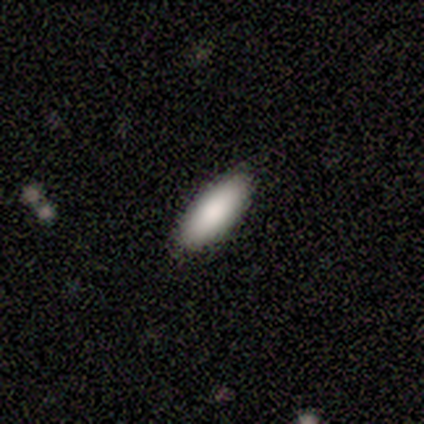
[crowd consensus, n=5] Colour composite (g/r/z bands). It shows a smooth galaxy with no disk features (100%) that is in between round and cigar-shaped (80%). Merging: none (80%).